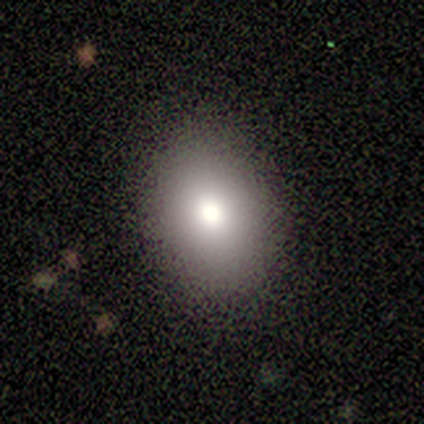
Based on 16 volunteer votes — Overall: smooth (69%). How rounded: in between (82%). Merging: none (87%).